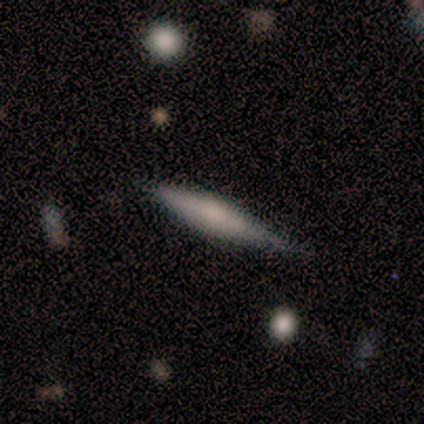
Volunteers were most divided on "merging" (2-way tie): none: 50%, minor disturbance: 50%, major disturbance: 0%, merger: 0%. More confident: how rounded — cigar-shaped (100%); smooth or featured — smooth (67%).